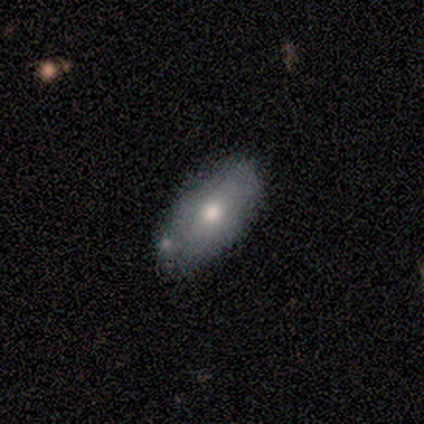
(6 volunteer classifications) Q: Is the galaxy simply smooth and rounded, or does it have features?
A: smooth — 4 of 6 (67%).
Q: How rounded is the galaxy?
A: in between — 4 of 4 (100%).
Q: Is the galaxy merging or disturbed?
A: none — 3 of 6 (50%, tied with minor disturbance).